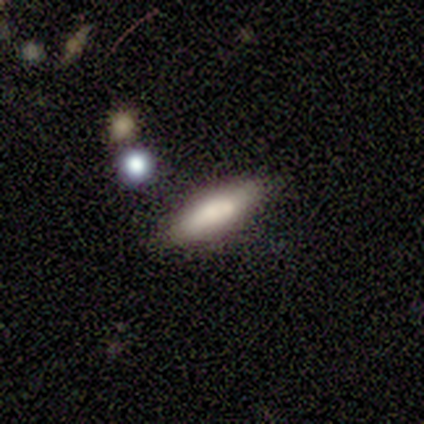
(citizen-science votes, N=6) Morphology: type=smooth (83%); roundness=cigar-shaped (80%); merging=none (100%).